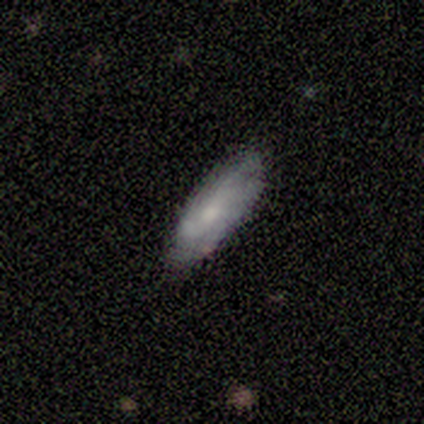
Smooth or featured? 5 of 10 (50%) said smooth. How rounded? 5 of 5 (100%) said in between. Merging? 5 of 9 (56%) said none.